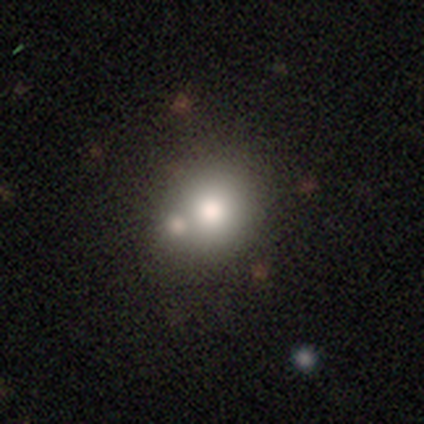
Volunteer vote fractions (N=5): Q: Smooth or featured?
A: smooth (60%); runner-up: featured or disk (20%)
Q: How rounded?
A: round (67%); runner-up: in between (33%)
Q: Merging?
A: none (75%); runner-up: merger (25%)